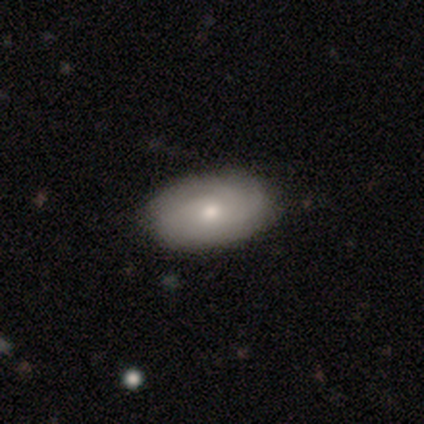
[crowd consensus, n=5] featured or disk 100%, smooth 0%, star or artifact 0%. Down the decision tree: edge-on disk — no (80%); bar — no (100%); spiral arms — yes (100%); spiral arm count — 3 (50%, tied with can't tell); spiral winding — tight (75%); bulge size — moderate (100%); merging — none (100%).